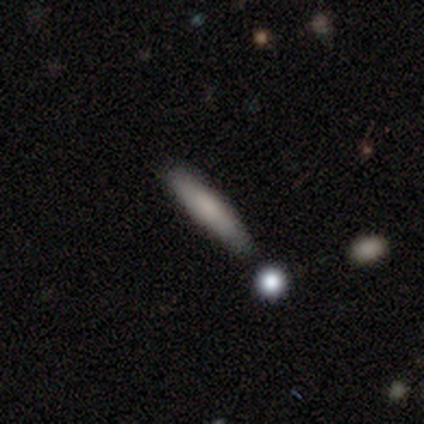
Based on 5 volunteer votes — Smooth or featured: smooth — 60% (featured or disk — 40%)
How rounded: cigar-shaped — 100%
Merging: none — 100%